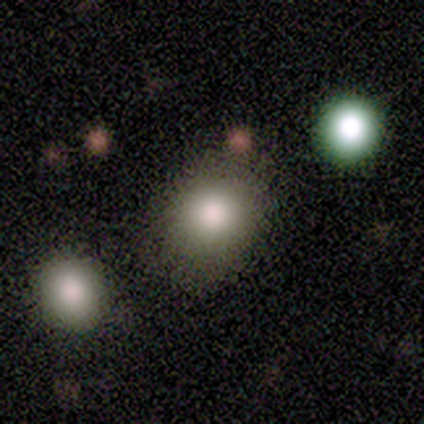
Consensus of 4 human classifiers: A smooth galaxy with no disk features (100%) that is round (100%). Merging: none (100%).